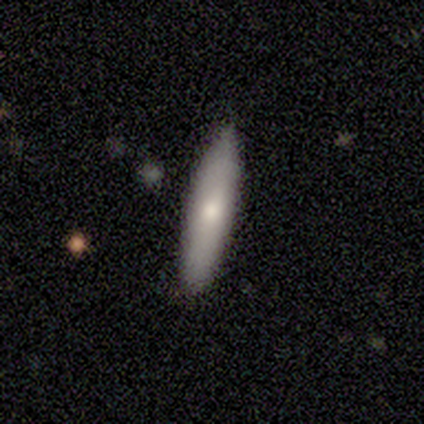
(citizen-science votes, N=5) A smooth galaxy with no disk features (100%) that is cigar-shaped (60%).

Vote fractions:
- Smooth or featured? smooth: 100% / featured or disk: 0% / star or artifact: 0%
- How rounded? cigar-shaped: 60% / in between: 40% / round: 0%
- Merging? none: 100% / minor disturbance: 0% / major disturbance: 0% / merger: 0%